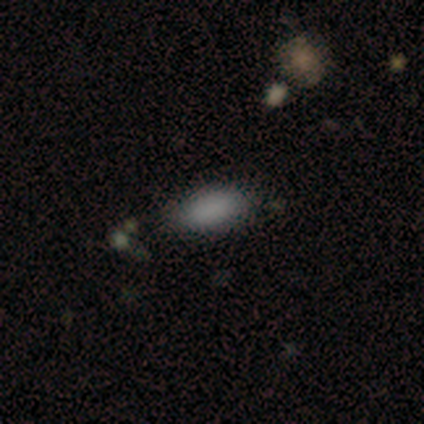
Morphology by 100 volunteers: Q: Smooth or featured?
A: smooth (91%); runner-up: star or artifact (9%)
Q: How rounded?
A: in between (92%); runner-up: cigar-shaped (8%)
Q: Merging?
A: none (80%); runner-up: minor disturbance (16%)